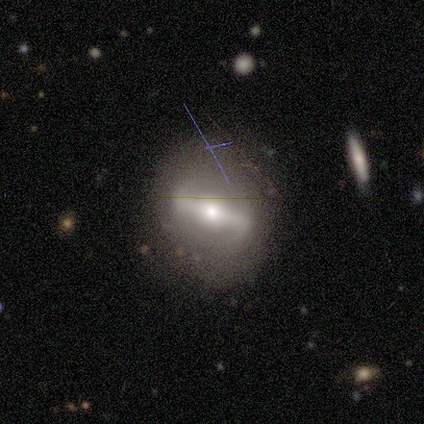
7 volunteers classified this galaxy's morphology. This appears to be a featured or disk galaxy (71%) with a strong bar (100%), no spiral arms (100%) and a moderate central bulge (67%). Merging: none (86%).